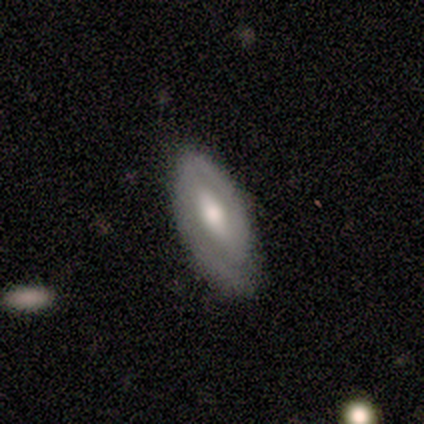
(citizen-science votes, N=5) Morphology: type=featured or disk (100%); edge-on=no (100%); bar=weak (60%); spiral arms=yes (80%); winding=tight (50%); arm count=2 (50%); bulge=moderate (100%); merging=none (100%).